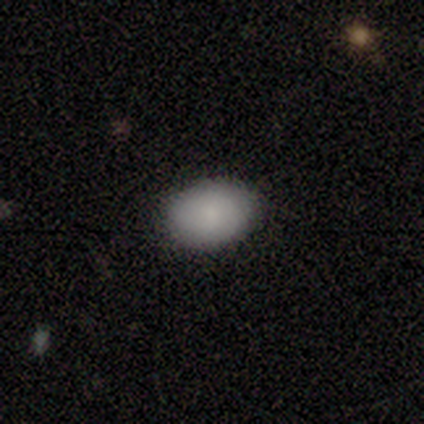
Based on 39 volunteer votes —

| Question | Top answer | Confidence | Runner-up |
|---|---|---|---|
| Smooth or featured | smooth | 87% | star or artifact (10%) |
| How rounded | in between | 76% | round (21%) |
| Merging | none | 94% | minor disturbance (3%) |